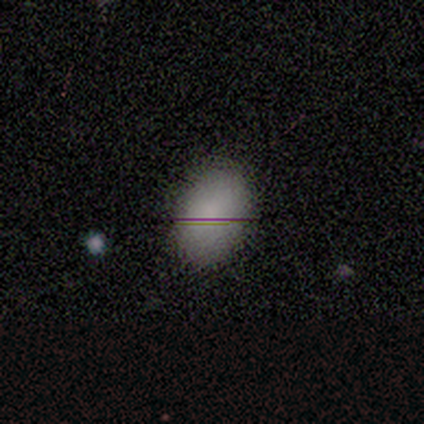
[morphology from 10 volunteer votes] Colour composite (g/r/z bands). It shows a smooth galaxy with no disk features (80%) that is in between round and cigar-shaped (88%). Merging: none (89%).